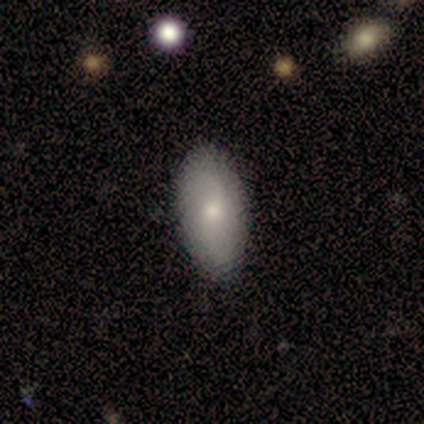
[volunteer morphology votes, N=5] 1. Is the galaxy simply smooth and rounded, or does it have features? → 60% smooth, 40% featured or disk, 0% star or artifact.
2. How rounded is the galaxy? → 100% in between, 0% round, 0% cigar-shaped.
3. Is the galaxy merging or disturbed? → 100% none, 0% minor disturbance, 0% major disturbance, 0% merger.